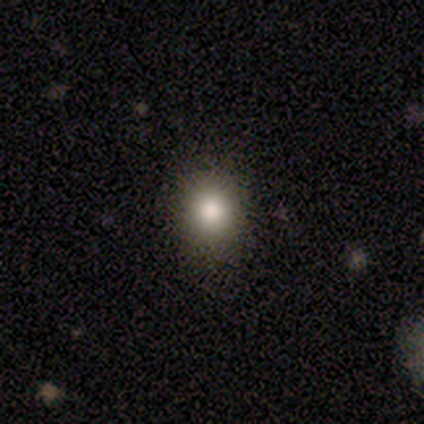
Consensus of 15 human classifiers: smooth-or-featured: smooth: 80% | featured or disk: 13% | star or artifact: 7%
  how-rounded: round: 75% | in between: 25% | cigar-shaped: 0%
  merging: none: 86% | minor disturbance: 7% | merger: 7% | major disturbance: 0%